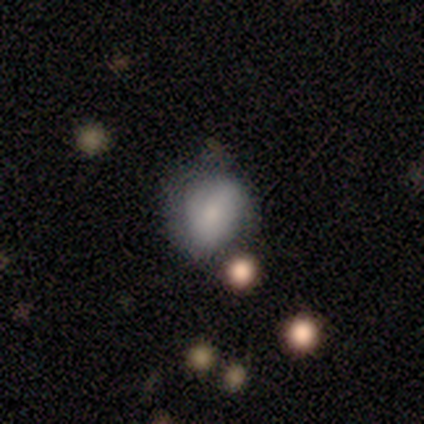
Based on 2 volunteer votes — smooth 100%, featured or disk 0%, star or artifact 0%. Down the decision tree: how rounded — round (50%, tied with in between); merging — minor disturbance (50%, tied with major disturbance).